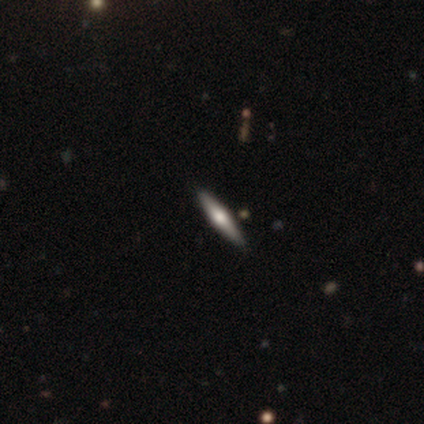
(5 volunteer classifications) smooth 60%, featured or disk 40%, star or artifact 0%. Down the decision tree: how rounded — cigar-shaped (67%); merging — none (80%).